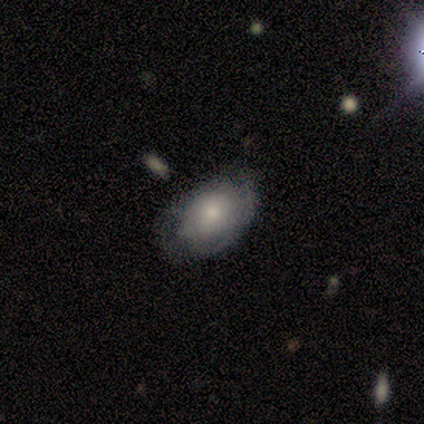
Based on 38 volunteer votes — Morphology: type=smooth (55%); roundness=in between (95%); merging=none (65%).